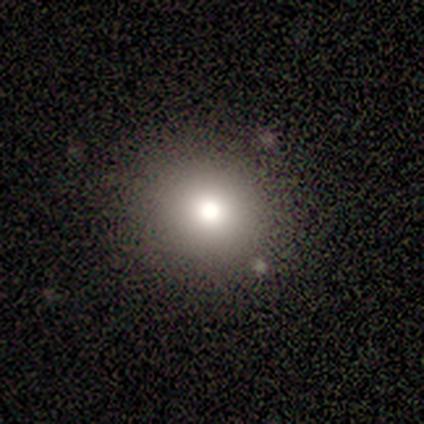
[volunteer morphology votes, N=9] type=smooth (78%); roundness=round (100%); merging=none (100%).